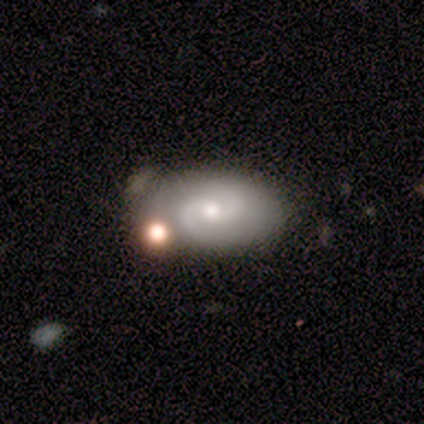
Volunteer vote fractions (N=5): Morphology: type=featured or disk (100%); edge-on=no (100%); bar=no (60%); spiral arms=yes (100%); winding=tight (40%, tied with medium); arm count=2 (100%); bulge=moderate (80%); merging=none (40%, tied with merger).